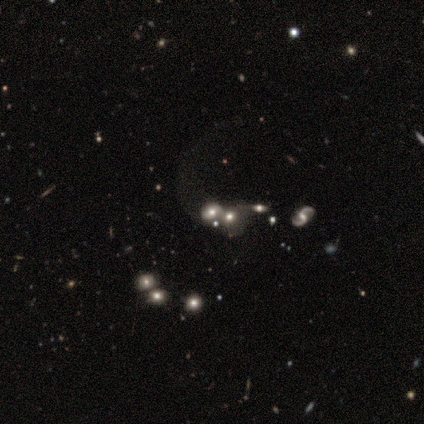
Smooth or featured?
  - featured or disk: 60% *
  - smooth: 40%
  - star or artifact: 0%
Edge-on disk?
  - yes: 67% *
  - no: 33%
Edge-on bulge?
  - none: 50% * (tied)
  - rounded: 50% * (tied)
  - boxy: 0%
Merging?
  - none: 40% *
  - minor disturbance: 20%
  - major disturbance: 20%
  - merger: 20%